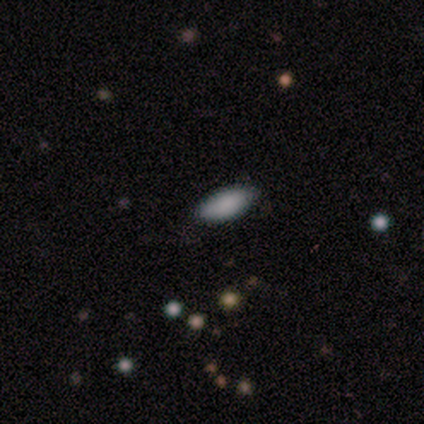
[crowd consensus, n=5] Smooth or featured?
  - smooth: 100% *
  - featured or disk: 0%
  - star or artifact: 0%
How rounded?
  - in between: 100% *
  - round: 0%
  - cigar-shaped: 0%
Merging?
  - none: 100% *
  - minor disturbance: 0%
  - major disturbance: 0%
  - merger: 0%